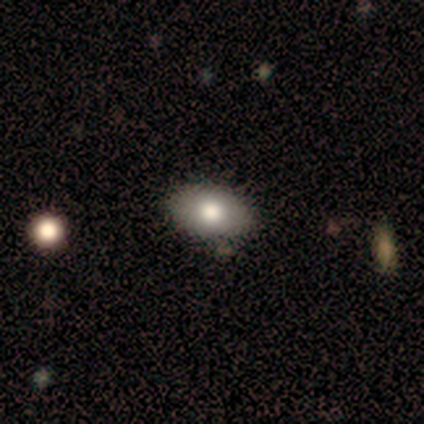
This appears to be a smooth galaxy with no disk features (80%) that is in between round and cigar-shaped (75%). Merging: none (100%).